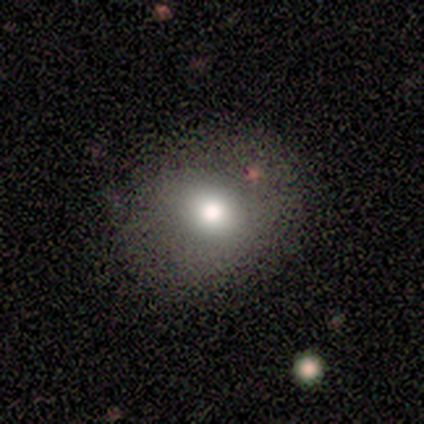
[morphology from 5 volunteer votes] A smooth galaxy with no disk features (100%) that is round (100%).

Vote fractions:
- Smooth or featured? smooth: 100% / featured or disk: 0% / star or artifact: 0%
- How rounded? round: 100% / in between: 0% / cigar-shaped: 0%
- Merging? none: 100% / minor disturbance: 0% / major disturbance: 0% / merger: 0%